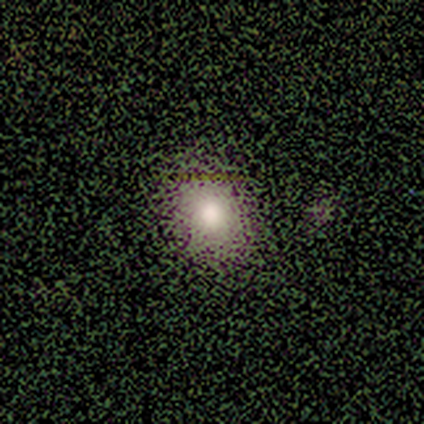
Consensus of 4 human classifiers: Smooth or featured?
  - smooth: 100% *
  - featured or disk: 0%
  - star or artifact: 0%
How rounded?
  - round: 50% * (tied)
  - in between: 50% * (tied)
  - cigar-shaped: 0%
Merging?
  - none: 100% *
  - minor disturbance: 0%
  - major disturbance: 0%
  - merger: 0%